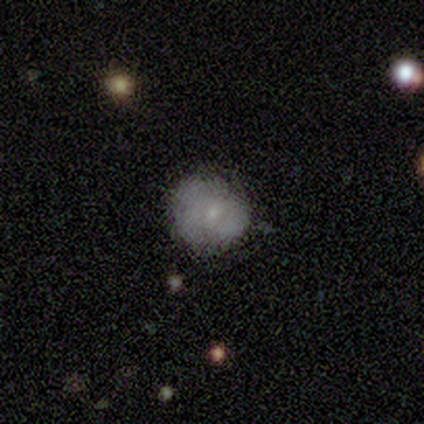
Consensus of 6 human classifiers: smooth 83%, featured or disk 17%, star or artifact 0%. Down the decision tree: how rounded — round (100%); merging — none (83%).